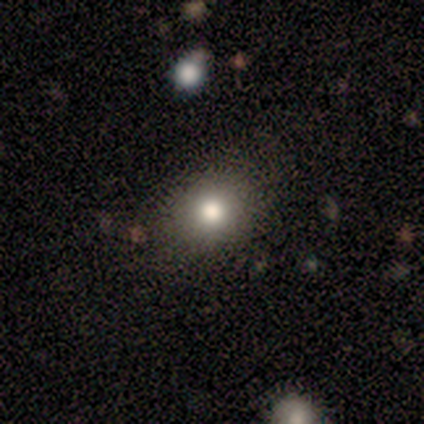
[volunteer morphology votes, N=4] This is clearly a smooth galaxy (100%). How rounded: likely round (75%). Merging: likely none (75%).